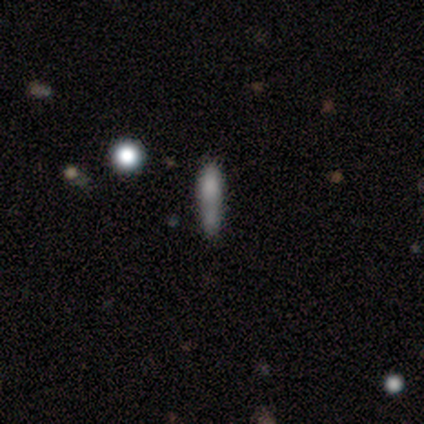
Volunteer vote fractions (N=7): smooth 86%, star or artifact 14%, featured or disk 0%. Down the decision tree: how rounded — cigar-shaped (83%); merging — minor disturbance (50%).